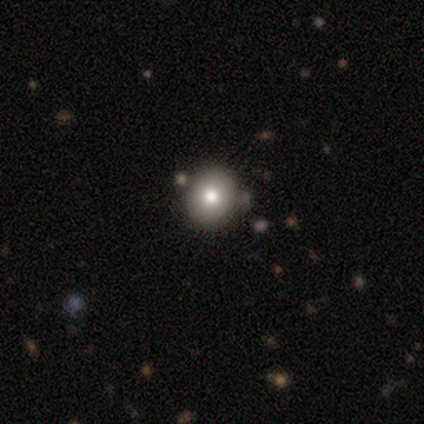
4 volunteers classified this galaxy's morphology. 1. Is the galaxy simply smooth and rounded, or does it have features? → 75% smooth, 25% star or artifact, 0% featured or disk.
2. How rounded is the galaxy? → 100% round, 0% in between, 0% cigar-shaped.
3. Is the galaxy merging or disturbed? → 100% none, 0% minor disturbance, 0% major disturbance, 0% merger.